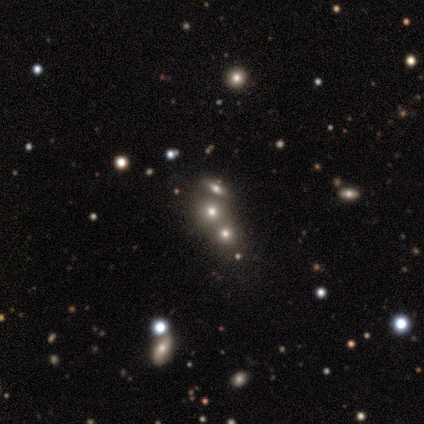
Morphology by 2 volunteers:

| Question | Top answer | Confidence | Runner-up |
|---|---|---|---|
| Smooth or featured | smooth | 100% | — |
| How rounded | round | 100% | — |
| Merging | none | 100% | — |